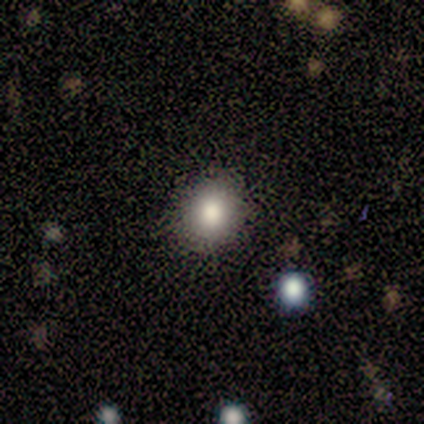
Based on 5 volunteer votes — A smooth galaxy with no disk features (100%) that is round (60%).

Vote fractions:
- Smooth or featured? smooth: 100% / featured or disk: 0% / star or artifact: 0%
- How rounded? round: 60% / in between: 40% / cigar-shaped: 0%
- Merging? none: 100% / minor disturbance: 0% / major disturbance: 0% / merger: 0%